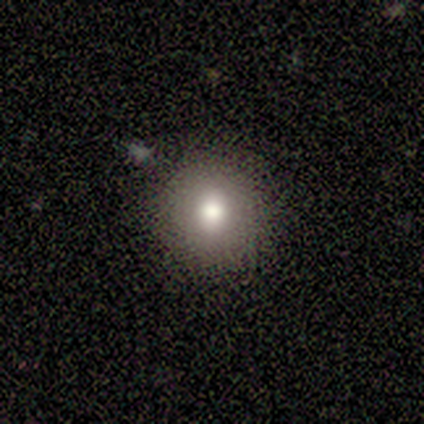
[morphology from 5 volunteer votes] smooth 100%, featured or disk 0%, star or artifact 0%. Down the decision tree: how rounded — round (100%); merging — none (60%).